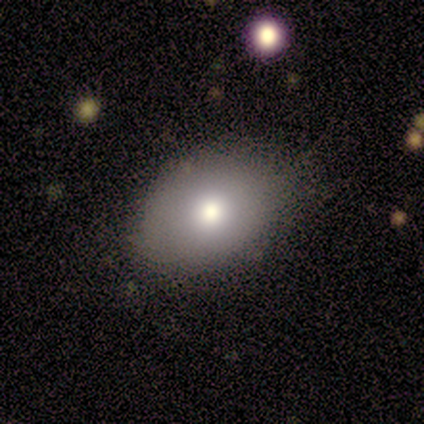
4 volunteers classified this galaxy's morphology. A smooth galaxy with no disk features (50%, tied with featured or disk) that is in between round and cigar-shaped (100%). Merging: minor disturbance (50%).